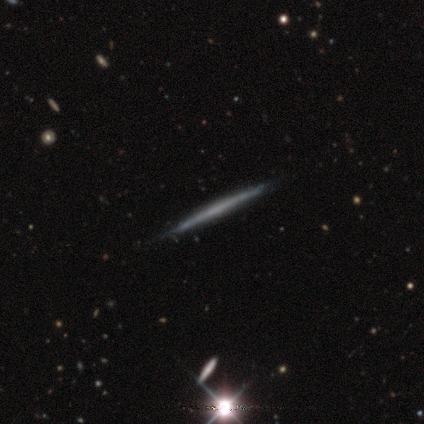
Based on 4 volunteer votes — Consensus on every question: smooth or featured — featured or disk (100%); edge-on disk — yes (100%); edge-on bulge — none (100%); merging — none (100%).